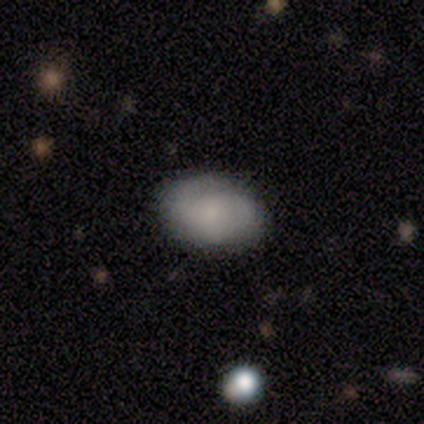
Overall: smooth (91%). How rounded: in between (90%). Merging: none (100%).